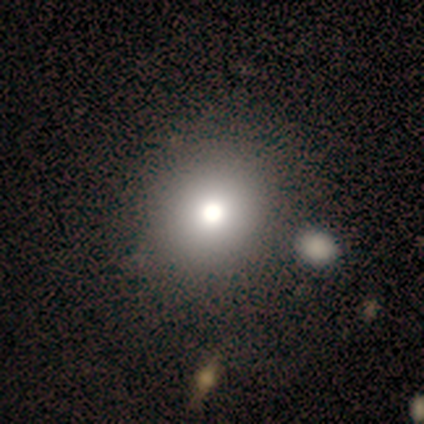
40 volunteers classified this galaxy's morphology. smooth-or-featured: smooth: 75% | featured or disk: 15% | star or artifact: 10%
  how-rounded: round: 83% | in between: 17% | cigar-shaped: 0%
  merging: none: 53% | merger: 14% | major disturbance: 3% | minor disturbance: 0%